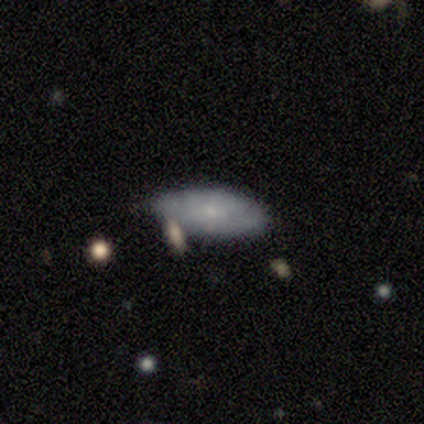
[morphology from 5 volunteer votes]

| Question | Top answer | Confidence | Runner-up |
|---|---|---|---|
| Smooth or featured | smooth | 60% | featured or disk (20%) |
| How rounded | in between | 100% | — |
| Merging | none | 50% | minor disturbance (25%) |